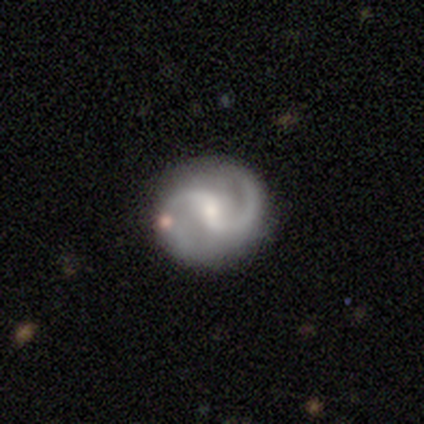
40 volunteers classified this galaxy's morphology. A featured or disk galaxy (95%) with a weak bar (37%, tied with no), 2 (94%) medium (64%) spiral arms (95%) and a small central bulge (61%).

Vote fractions:
- Smooth or featured? featured or disk: 95% / smooth: 5% / star or artifact: 0%
- Edge-on disk? no: 100% / yes: 0%
- Bar? weak: 37% (tied) / no: 37% (tied) / strong: 26%
- Spiral arms? yes: 95% / no: 5%
- Spiral winding? medium: 64% / loose: 25% / tight: 11%
- Spiral arm count? 2: 94% / 1: 3% / can't tell: 3% / 3: 0% / 4: 0% / more than 4: 0%
- Bulge size? small: 61% / moderate: 34% / dominant: 3% / none: 3% / large: 0%
- Merging? none: 82% / minor disturbance: 12% / major disturbance: 2% / merger: 2%